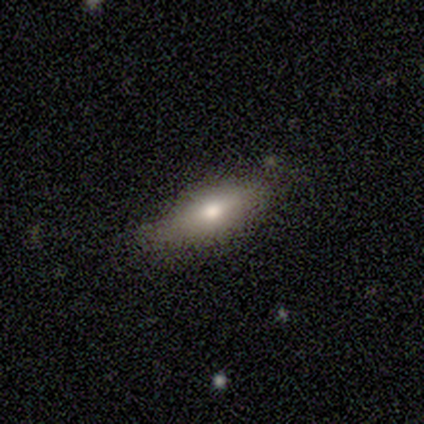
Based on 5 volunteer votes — smooth-or-featured: featured or disk: 60% | smooth: 40% | star or artifact: 0%
  disk-edge-on: yes: 67% | no: 33%
    edge-on-bulge: none: 50% (tied) | rounded: 50% (tied) | boxy: 0%
  merging: minor disturbance: 60% | none: 40% | major disturbance: 0% | merger: 0%